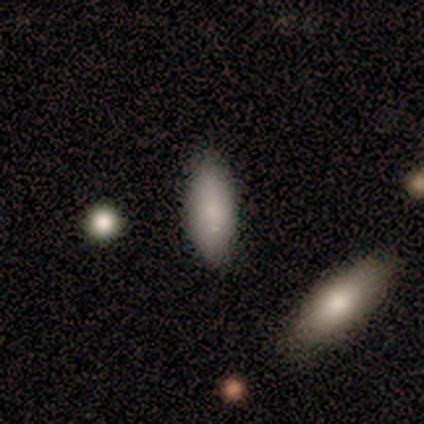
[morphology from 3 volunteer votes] smooth-or-featured: smooth: 100% | featured or disk: 0% | star or artifact: 0%
  how-rounded: in between: 67% | cigar-shaped: 33% | round: 0%
  merging: minor disturbance: 67% | none: 33% | major disturbance: 0% | merger: 0%